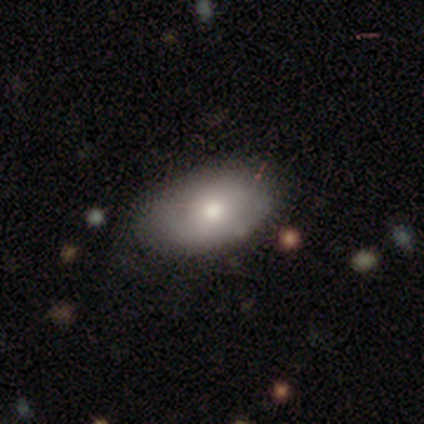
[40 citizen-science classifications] smooth 57%, featured or disk 42%, star or artifact 0%. Down the decision tree: how rounded — in between (96%); merging — none (62%).